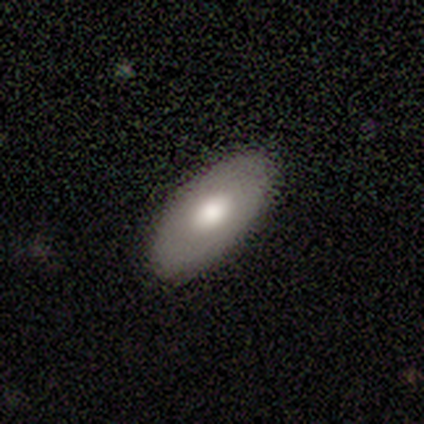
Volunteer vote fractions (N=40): Smooth or featured?
  - smooth: 62% *
  - featured or disk: 30%
  - star or artifact: 8%
How rounded?
  - in between: 96% *
  - round: 4%
  - cigar-shaped: 0%
Merging?
  - none: 89% *
  - minor disturbance: 5%
  - merger: 5%
  - major disturbance: 0%